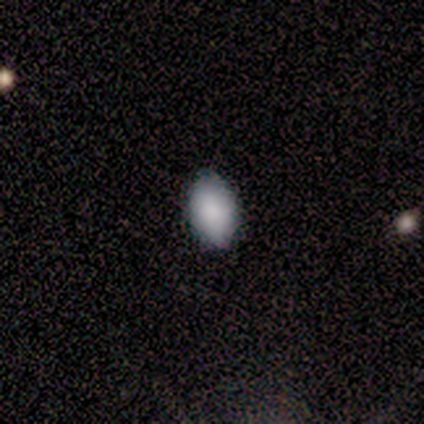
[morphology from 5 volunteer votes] Smooth or featured? smooth (100%)
How rounded? in between (100%)
Merging? none (60%)